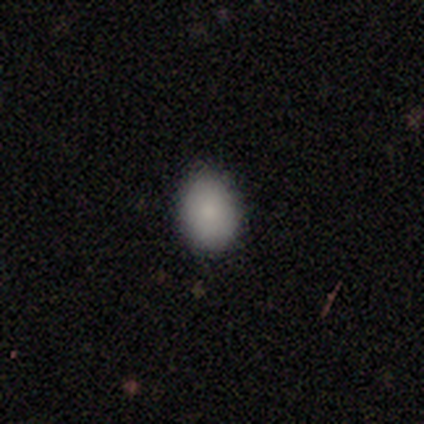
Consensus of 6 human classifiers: smooth-or-featured: smooth: 83% | star or artifact: 17% | featured or disk: 0%
  how-rounded: in between: 100% | round: 0% | cigar-shaped: 0%
  merging: none: 80% | minor disturbance: 20% | major disturbance: 0% | merger: 0%